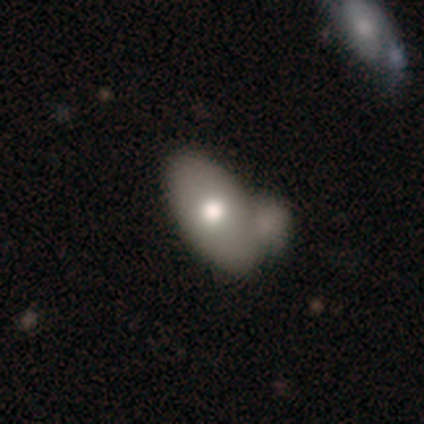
This is likely a smooth galaxy (68%). How rounded: clearly in between (89%). Merging: possibly merger (49%).